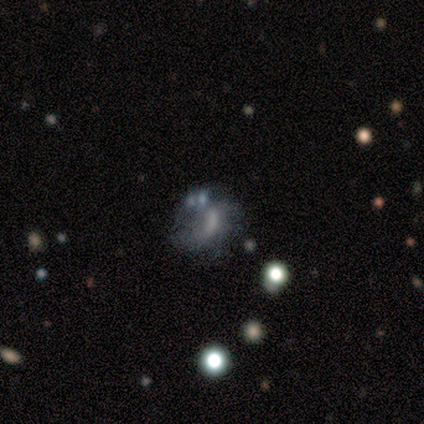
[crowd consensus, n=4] A star or artifact, not a galaxy (50%).